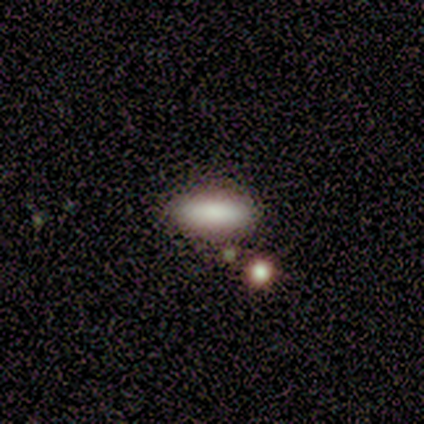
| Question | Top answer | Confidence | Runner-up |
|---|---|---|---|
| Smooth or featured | smooth | 100% | — |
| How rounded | cigar-shaped | 60% | in between (40%) |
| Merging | none | 60% | minor disturbance (40%) |